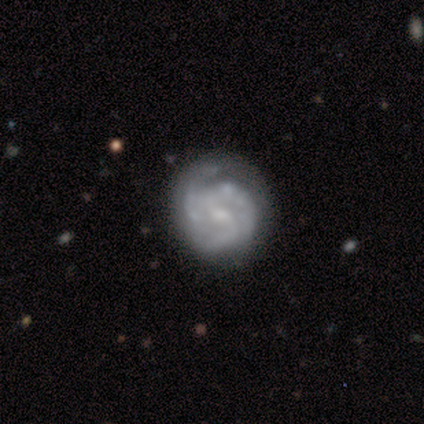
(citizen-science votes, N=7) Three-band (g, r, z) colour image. It shows a featured or disk galaxy (86%) with no bar (67%), 2 (50%) medium (50%) spiral arms (100%) and a moderate central bulge (50%). Merging: none (100%).